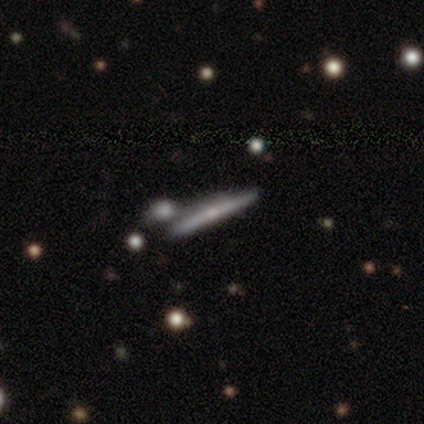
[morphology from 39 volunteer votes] featured or disk 82%, smooth 15%, star or artifact 3%. Down the decision tree: edge-on disk — yes (94%); edge-on bulge — rounded (73%); merging — none (39%).